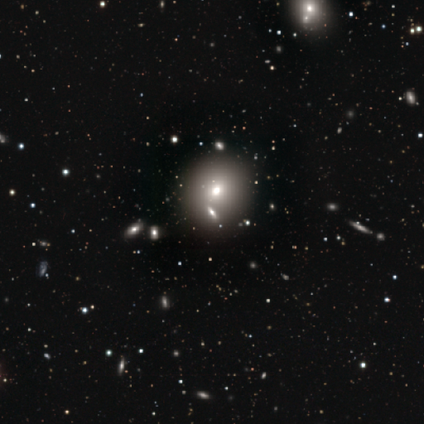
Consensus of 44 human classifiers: A smooth galaxy with no disk features (70%) that is round (84%). Merging: none (89%).